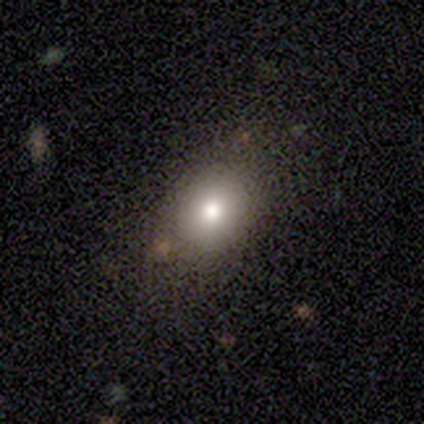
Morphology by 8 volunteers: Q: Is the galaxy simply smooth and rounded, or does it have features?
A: star or artifact — 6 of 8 (75%).